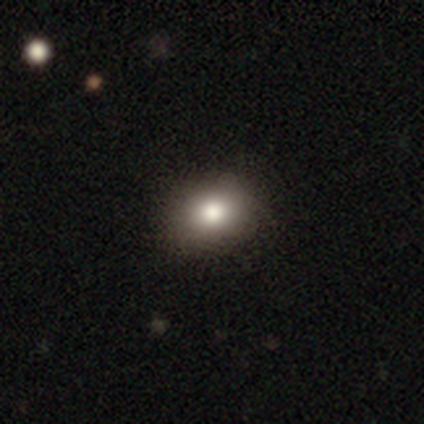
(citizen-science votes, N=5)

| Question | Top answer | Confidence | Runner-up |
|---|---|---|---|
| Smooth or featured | smooth | 100% | — |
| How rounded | round | 60% | in between (40%) |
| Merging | none | 100% | — |